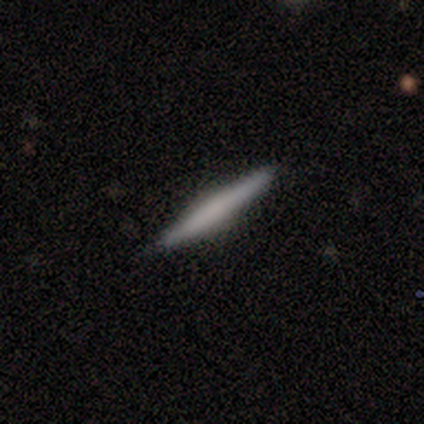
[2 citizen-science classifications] Smooth or featured?
  - featured or disk: 100% *
  - smooth: 0%
  - star or artifact: 0%
Edge-on disk?
  - yes: 100% *
  - no: 0%
Edge-on bulge?
  - boxy: 100% *
  - none: 0%
  - rounded: 0%
Merging?
  - none: 100% *
  - minor disturbance: 0%
  - major disturbance: 0%
  - merger: 0%